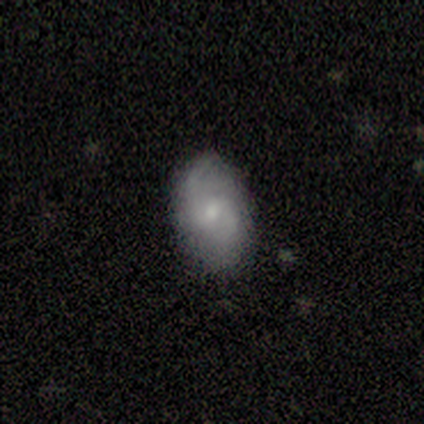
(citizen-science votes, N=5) A featured or disk galaxy (80%) with a weak bar (50%, tied with no), 2 (100%) medium (50%, tied with loose) spiral arms (100%) and a moderate central bulge (75%). Merging: none (100%).